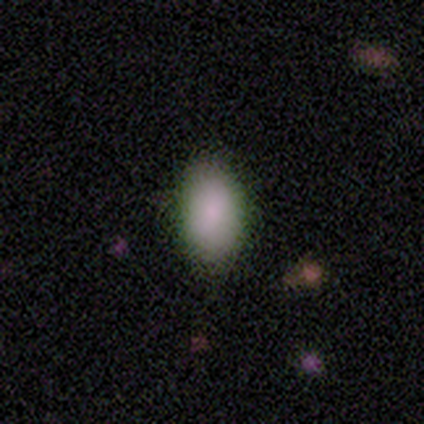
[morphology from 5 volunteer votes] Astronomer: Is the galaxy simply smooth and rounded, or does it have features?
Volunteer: smooth — 80%.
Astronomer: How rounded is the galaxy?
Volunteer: in between — 75%.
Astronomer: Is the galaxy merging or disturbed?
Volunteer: none — 100%.